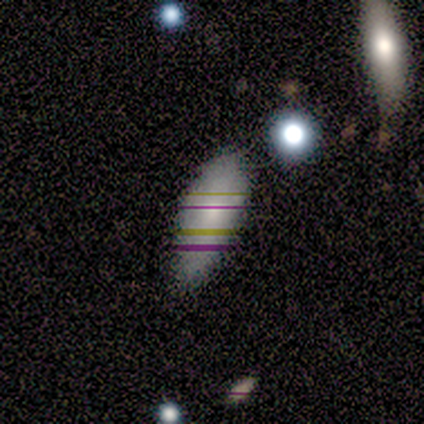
Morphology: type=smooth (60%); roundness=in between (100%); merging=none (67%).